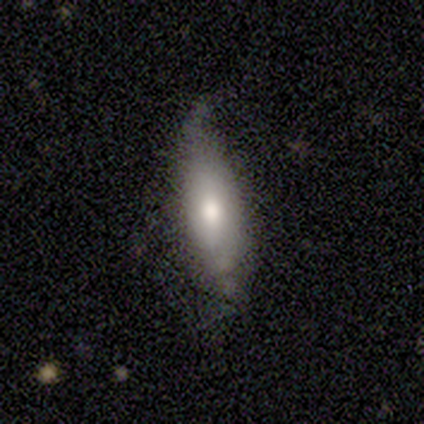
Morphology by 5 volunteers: Volunteers were most divided on "smooth or featured": featured or disk: 60%, smooth: 40%, star or artifact: 0%. More confident: bar — no (100%); spiral arms — no (100%); bulge size — moderate (100%); merging — none (80%); edge-on disk — no (67%).